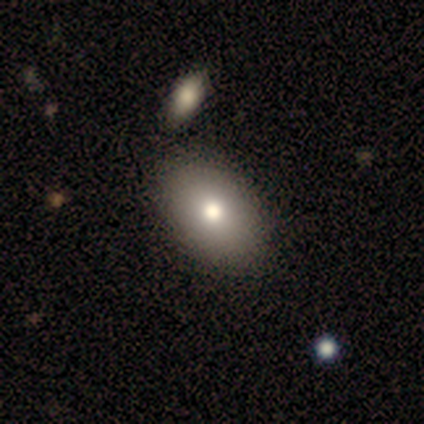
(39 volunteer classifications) Smooth or featured: smooth — 82% (featured or disk — 13%)
How rounded: in between — 97% (round — 3%)
Merging: none — 70% (merger — 8%)